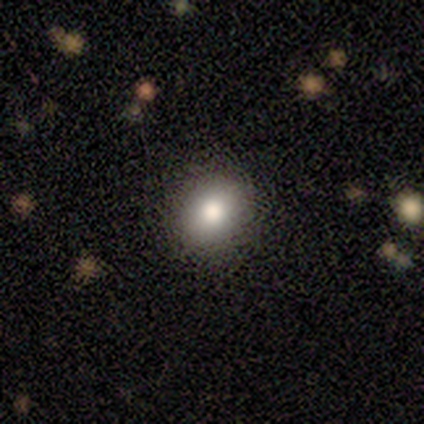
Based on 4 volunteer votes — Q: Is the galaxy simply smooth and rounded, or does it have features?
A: smooth — 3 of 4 (75%).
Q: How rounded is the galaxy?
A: round — 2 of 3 (67%).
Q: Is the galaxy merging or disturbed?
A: none — 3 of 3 (100%).